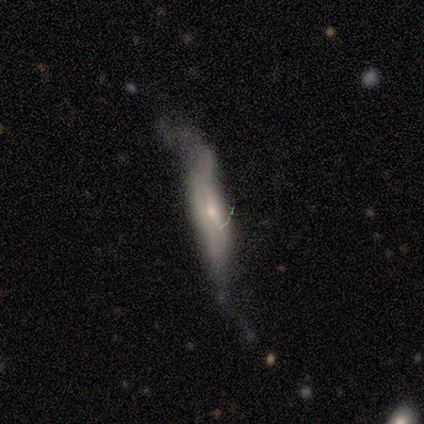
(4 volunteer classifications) A smooth galaxy with no disk features (50%, tied with featured or disk) that is in between round and cigar-shaped (50%, tied with cigar-shaped). Merging: minor disturbance (50%, tied with major disturbance).